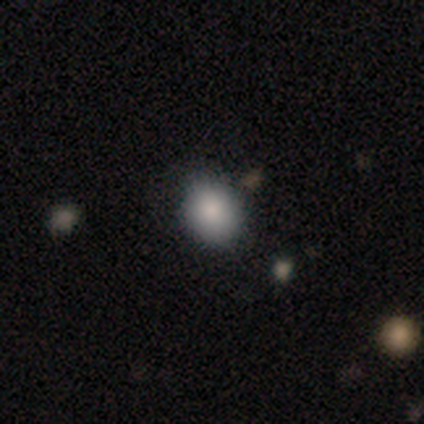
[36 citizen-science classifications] Smooth or featured? 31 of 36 (86%) said smooth. How rounded? 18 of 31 (58%) said round. Merging? 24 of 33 (73%) said none.